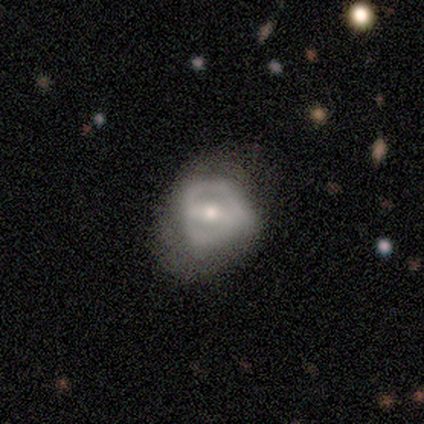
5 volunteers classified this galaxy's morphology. Smooth or featured? 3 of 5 (60%) said featured or disk. Edge-on disk? 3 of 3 (100%) said no. Bar? 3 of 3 (100%) said strong. Spiral arms? 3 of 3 (100%) said yes. Spiral winding? 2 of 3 (67%) said medium. Spiral arm count? 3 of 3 (100%) said 2. Bulge size? 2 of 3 (67%) said moderate. Merging? 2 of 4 (50%, tied with major disturbance) said none.